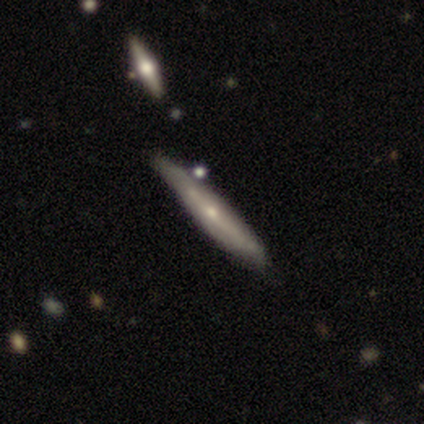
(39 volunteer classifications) A featured or disk galaxy (74%) viewed edge-on (79%) with a rounded central bulge (70%). Merging: none (63%).